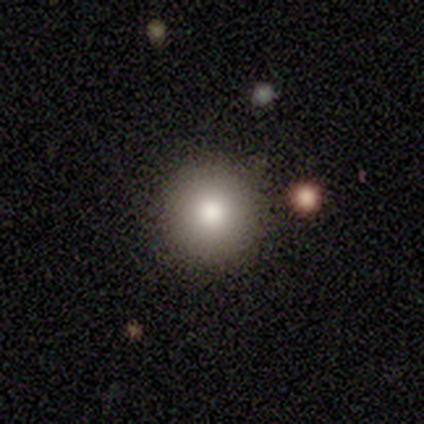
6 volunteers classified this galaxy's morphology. Q: Smooth or featured?
A: smooth (67%); runner-up: featured or disk (17%)
Q: How rounded?
A: round (100%)
Q: Merging?
A: none (100%)